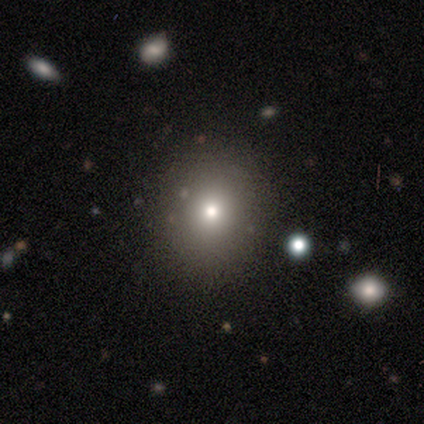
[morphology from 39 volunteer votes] type=smooth (74%); roundness=round (79%); merging=none (85%).